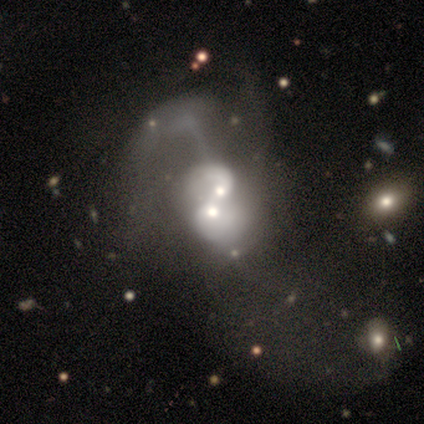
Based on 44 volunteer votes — Smooth or featured: featured or disk — 84% (smooth — 11%)
Edge-on disk: no — 100%
Bar: no — 86% (weak — 8%)
Spiral arms: no — 51% (yes — 49%)
Bulge size: moderate — 78% (large — 14%)
Merging: merger — 93% (major disturbance — 7%)